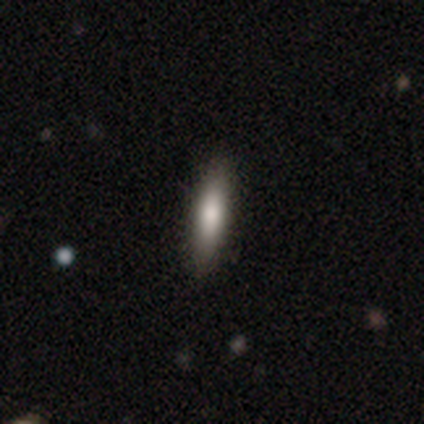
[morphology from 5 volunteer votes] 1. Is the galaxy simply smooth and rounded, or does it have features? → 60% smooth, 40% featured or disk, 0% star or artifact.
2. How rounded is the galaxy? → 67% in between, 33% cigar-shaped, 0% round.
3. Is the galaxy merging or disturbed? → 80% none, 20% minor disturbance, 0% major disturbance, 0% merger.